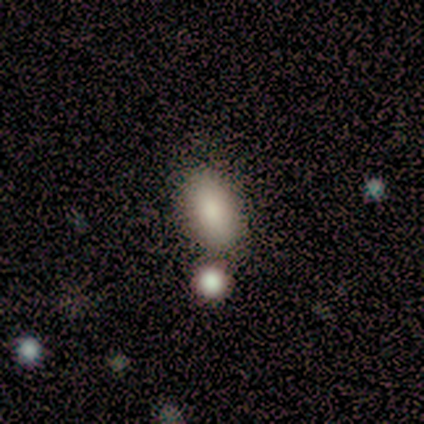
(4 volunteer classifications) smooth 100%, featured or disk 0%, star or artifact 0%. Down the decision tree: how rounded — in between (100%); merging — none (50%).